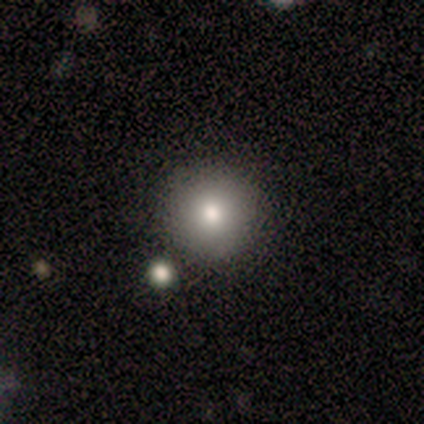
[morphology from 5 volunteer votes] Smooth or featured? 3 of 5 (60%) said smooth. How rounded? 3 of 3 (100%) said round. Merging? 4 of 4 (100%) said none.